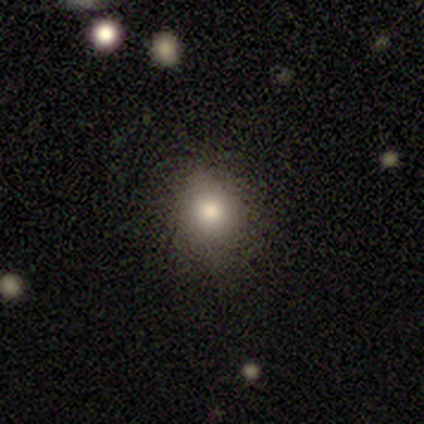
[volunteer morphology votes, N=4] smooth-or-featured: smooth: 100% | featured or disk: 0% | star or artifact: 0%
  how-rounded: round: 75% | in between: 25% | cigar-shaped: 0%
  merging: none: 50% (tied) | minor disturbance: 50% (tied) | major disturbance: 0% | merger: 0%